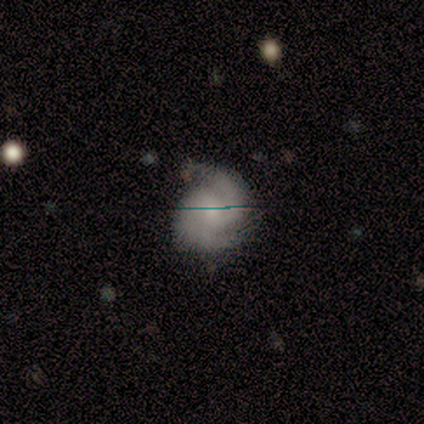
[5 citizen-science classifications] Q: Smooth or featured?
A: featured or disk (40%); tied with: star or artifact (40%)
Q: Edge-on disk?
A: no (100%)
Q: Bar?
A: strong (50%); tied with: no (50%)
Q: Spiral arms?
A: yes (100%)
Q: Spiral winding?
A: medium (100%)
Q: Spiral arm count?
A: 2 (50%); tied with: can't tell (50%)
Q: Bulge size?
A: moderate (50%); tied with: small (50%)
Q: Merging?
A: none (67%); runner-up: major disturbance (33%)